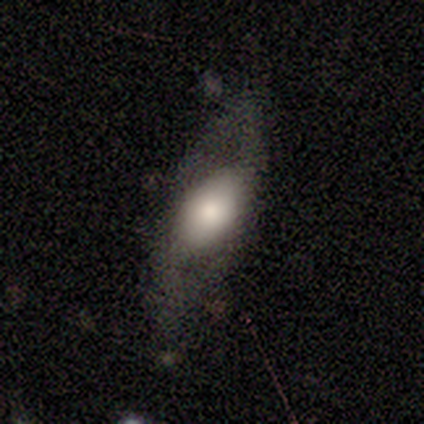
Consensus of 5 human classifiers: Q: Smooth or featured?
A: featured or disk (100%)
Q: Edge-on disk?
A: no (80%); runner-up: yes (20%)
Q: Bar?
A: no (75%); runner-up: weak (25%)
Q: Spiral arms?
A: yes (50%); tied with: no (50%)
Q: Spiral winding?
A: medium (50%); tied with: loose (50%)
Q: Spiral arm count?
A: 2 (100%)
Q: Bulge size?
A: large (50%); tied with: moderate (50%)
Q: Merging?
A: none (60%); runner-up: minor disturbance (40%)